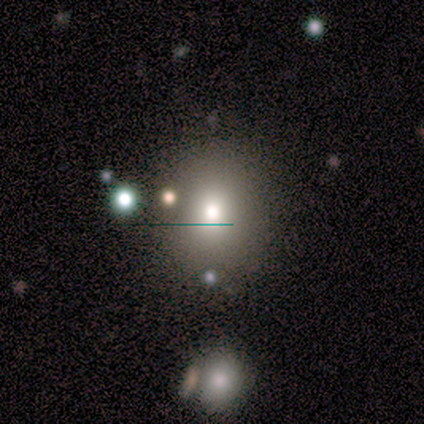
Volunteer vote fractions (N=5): smooth-or-featured: smooth: 40% (tied) | star or artifact: 40% (tied) | featured or disk: 20%
  how-rounded: round: 50% (tied) | in between: 50% (tied) | cigar-shaped: 0%
  merging: none: 67% | minor disturbance: 33% | major disturbance: 0% | merger: 0%